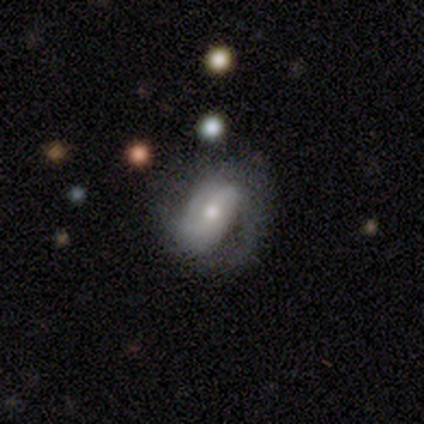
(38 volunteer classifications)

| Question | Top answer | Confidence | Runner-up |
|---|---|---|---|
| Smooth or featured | featured or disk | 68% | smooth (26%) |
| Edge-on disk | no | 96% | yes (4%) |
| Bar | weak | 52% | strong (24%) |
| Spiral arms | yes | 92% | no (8%) |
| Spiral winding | tight | 39% | tied: loose (39%) |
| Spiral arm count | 2 | 43% | can't tell (30%) |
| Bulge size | moderate | 56% | small (44%) |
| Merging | none | 39% | major disturbance (19%) |